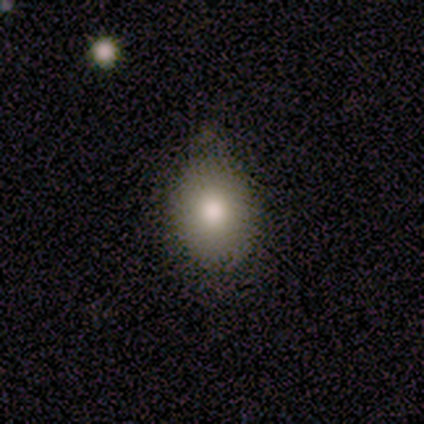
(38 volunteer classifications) Overall: smooth (82%). How rounded: in between (58%; round 39%). Merging: none (51%; minor disturbance 46%).